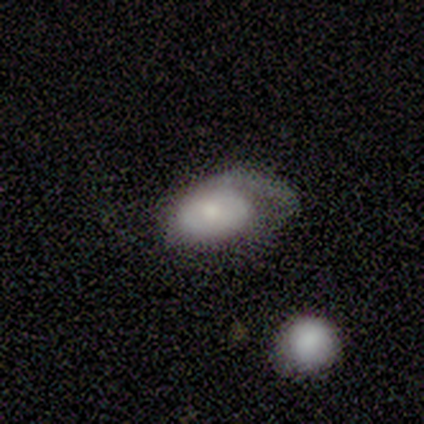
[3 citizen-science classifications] Smooth or featured? smooth (67%)
How rounded? in between (100%)
Merging? major disturbance (67%)